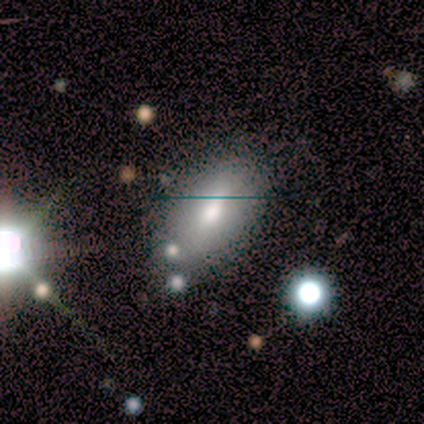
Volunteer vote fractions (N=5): A smooth galaxy with no disk features (80%) that is in between round and cigar-shaped (100%).

Vote fractions:
- Smooth or featured? smooth: 80% / featured or disk: 20% / star or artifact: 0%
- How rounded? in between: 100% / round: 0% / cigar-shaped: 0%
- Merging? none: 80% / merger: 20% / minor disturbance: 0% / major disturbance: 0%